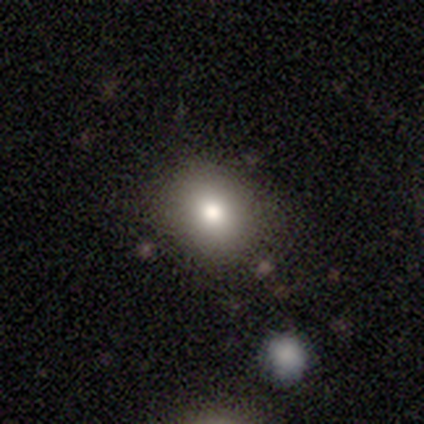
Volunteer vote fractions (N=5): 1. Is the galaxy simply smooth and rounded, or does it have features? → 60% smooth, 40% featured or disk, 0% star or artifact.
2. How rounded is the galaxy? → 67% round, 33% in between, 0% cigar-shaped.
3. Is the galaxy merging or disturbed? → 100% none, 0% minor disturbance, 0% major disturbance, 0% merger.